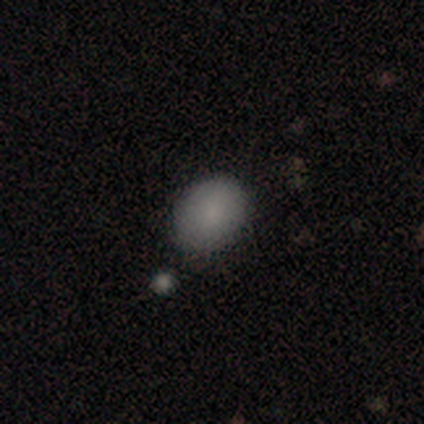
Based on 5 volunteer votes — This is clearly a smooth galaxy (100%). How rounded: clearly in between (80%). Merging: likely none (60%).